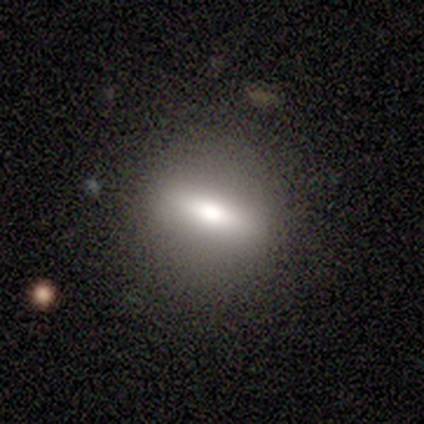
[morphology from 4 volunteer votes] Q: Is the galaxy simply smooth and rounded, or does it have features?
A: featured or disk — 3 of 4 (75%).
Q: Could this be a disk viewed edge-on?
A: yes — 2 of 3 (67%).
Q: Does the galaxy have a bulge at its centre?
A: rounded — 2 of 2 (100%).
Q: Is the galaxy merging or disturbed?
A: none — 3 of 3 (100%).